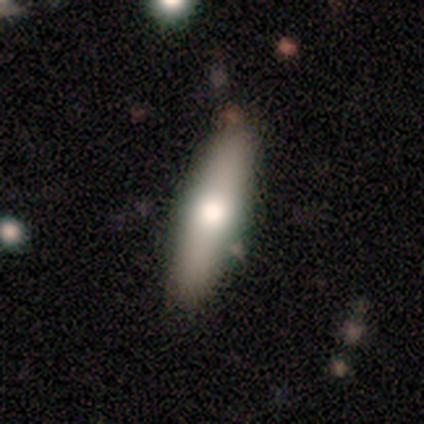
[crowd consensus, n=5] Morphology: type=smooth (60%); roundness=cigar-shaped (67%); merging=none (100%).